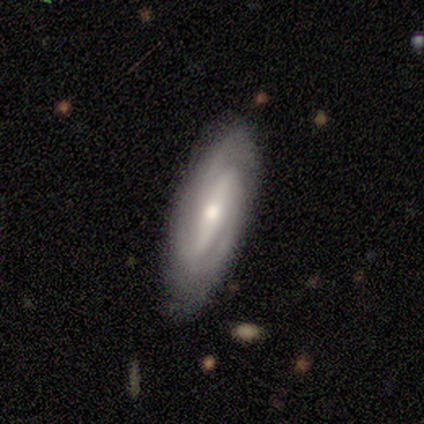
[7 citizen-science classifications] Smooth or featured: featured or disk — 100%
Edge-on disk: no — 100%
Bar: strong — 71% (weak — 29%)
Spiral arms: yes — 100%
Spiral winding: tight — 43% (tied with medium — 43%)
Spiral arm count: 2 — 57% (3 — 43%)
Bulge size: small — 86% (moderate — 14%)
Merging: none — 86% (minor disturbance — 14%)